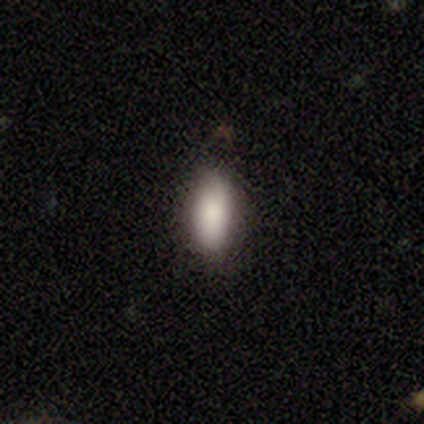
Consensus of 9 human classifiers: This appears to be a smooth galaxy with no disk features (100%) that is in between round and cigar-shaped (89%). Merging: none (67%).